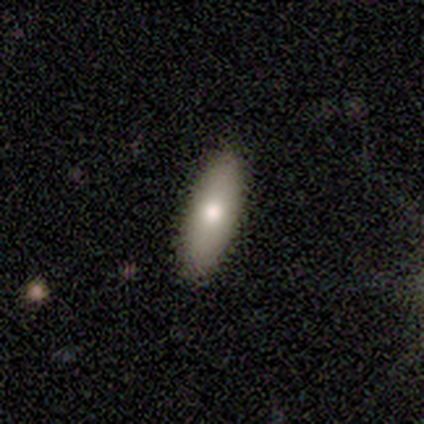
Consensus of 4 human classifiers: smooth 100%, featured or disk 0%, star or artifact 0%. Down the decision tree: how rounded — cigar-shaped (100%); merging — none (50%).